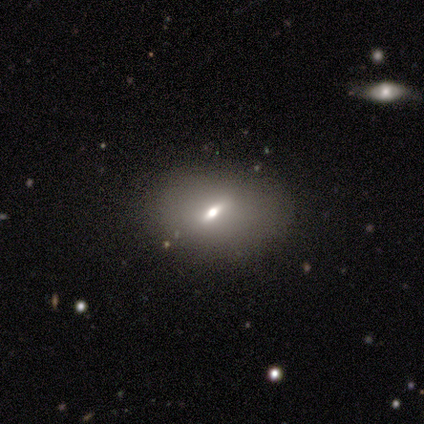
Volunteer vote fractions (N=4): smooth-or-featured: smooth: 50% (tied) | featured or disk: 50% (tied) | star or artifact: 0%
  how-rounded: in between: 100% | round: 0% | cigar-shaped: 0%
  merging: none: 100% | minor disturbance: 0% | major disturbance: 0% | merger: 0%